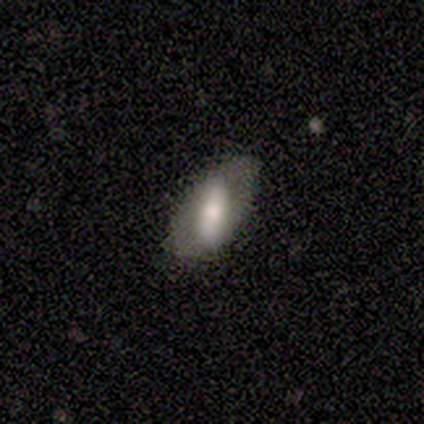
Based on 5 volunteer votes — Q: Smooth or featured?
A: smooth (80%); runner-up: featured or disk (20%)
Q: How rounded?
A: in between (100%)
Q: Merging?
A: none (60%); runner-up: minor disturbance (20%)